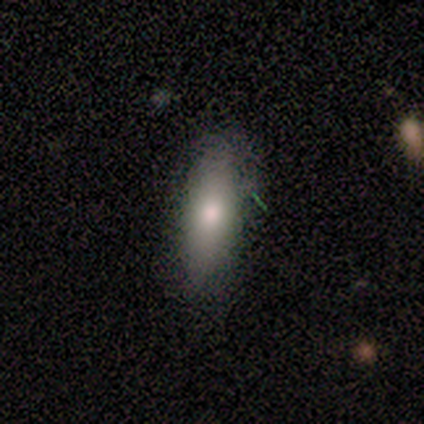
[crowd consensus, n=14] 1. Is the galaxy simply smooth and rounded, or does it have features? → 79% smooth, 21% featured or disk, 0% star or artifact.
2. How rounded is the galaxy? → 73% in between, 18% cigar-shaped, 9% round.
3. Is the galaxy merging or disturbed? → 71% none, 21% minor disturbance, 7% major disturbance, 0% merger.